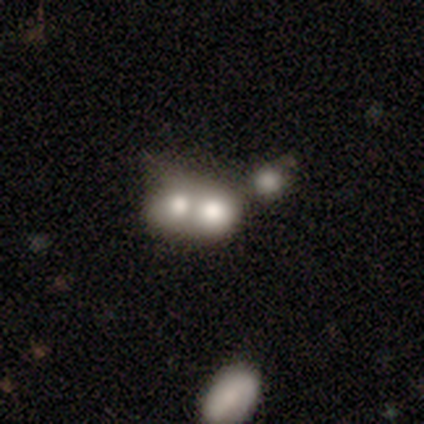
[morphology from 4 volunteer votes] Smooth or featured?
  - smooth: 100% *
  - featured or disk: 0%
  - star or artifact: 0%
How rounded?
  - round: 50% * (tied)
  - in between: 50% * (tied)
  - cigar-shaped: 0%
Merging?
  - merger: 100% *
  - none: 0%
  - minor disturbance: 0%
  - major disturbance: 0%